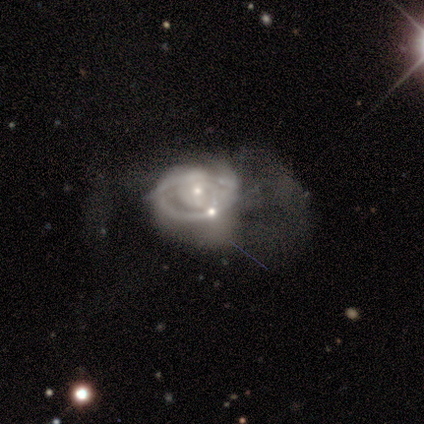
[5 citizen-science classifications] This is likely a featured or disk galaxy (60%). It is likely not viewed edge-on (67%). Bar: clearly no (100%). Spiral arm pattern: clearly no (100%). Central bulge: possibly moderate (50%, tied with small). Merging: clearly none (80%).